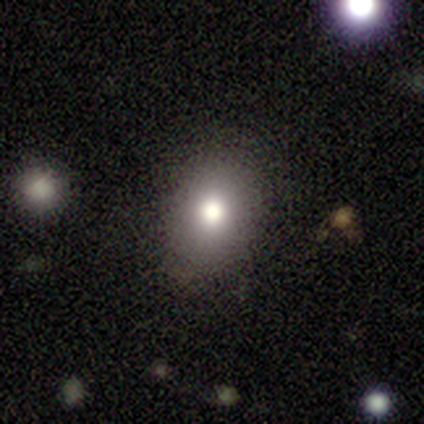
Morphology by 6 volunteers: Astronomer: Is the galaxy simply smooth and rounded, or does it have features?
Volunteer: smooth — 67%.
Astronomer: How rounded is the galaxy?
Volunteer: round — 50%, tied with in between at 50%.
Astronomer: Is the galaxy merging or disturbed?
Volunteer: none — 75%.